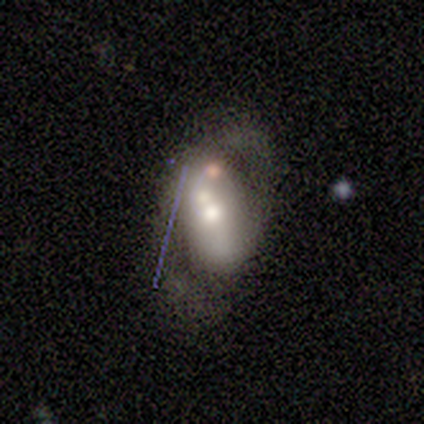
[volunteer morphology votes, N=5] A featured or disk galaxy (60%) with a strong bar (33%, tied with weak and no), no spiral arms (67%) and a moderate central bulge (100%). Merging: major disturbance (50%).